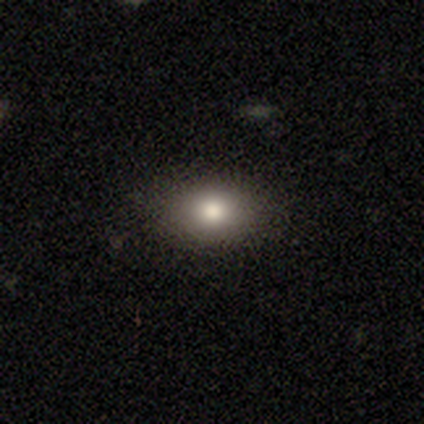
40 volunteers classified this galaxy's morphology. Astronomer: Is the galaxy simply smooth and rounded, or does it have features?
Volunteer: smooth — 88%.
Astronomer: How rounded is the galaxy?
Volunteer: in between — 80%.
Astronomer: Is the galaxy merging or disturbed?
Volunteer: none — 58%.